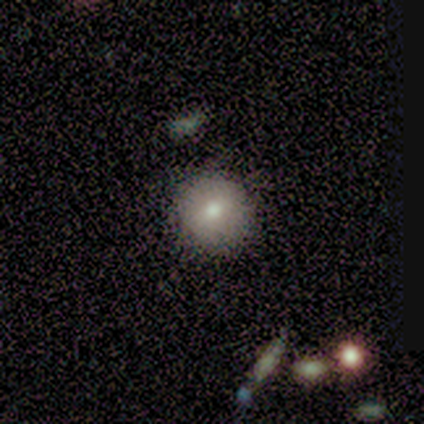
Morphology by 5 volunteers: Smooth or featured?
  - smooth: 100% *
  - featured or disk: 0%
  - star or artifact: 0%
How rounded?
  - round: 100% *
  - in between: 0%
  - cigar-shaped: 0%
Merging?
  - none: 100% *
  - minor disturbance: 0%
  - major disturbance: 0%
  - merger: 0%